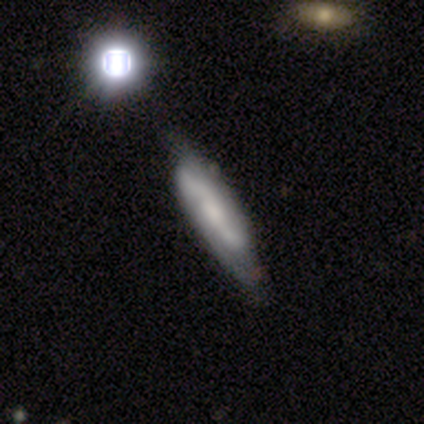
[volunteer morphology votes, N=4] Q: Smooth or featured?
A: featured or disk (75%); runner-up: smooth (25%)
Q: Edge-on disk?
A: yes (67%); runner-up: no (33%)
Q: Edge-on bulge?
A: boxy (50%); tied with: none (50%)
Q: Merging?
A: none (50%); tied with: minor disturbance (50%)